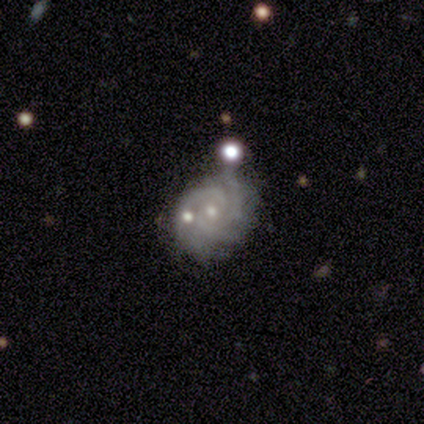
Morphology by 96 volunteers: Volunteers were most divided on "spiral arm count": 3: 39%, 2: 30%, can't tell: 21%, 4: 6%, more than 4: 5%, 1: 0%. More confident: edge-on disk — no (100%); spiral arms — yes (99%); smooth or featured — featured or disk (92%); bar — no (85%); bulge size — small (77%); spiral winding — tight (66%); merging — none (57%).